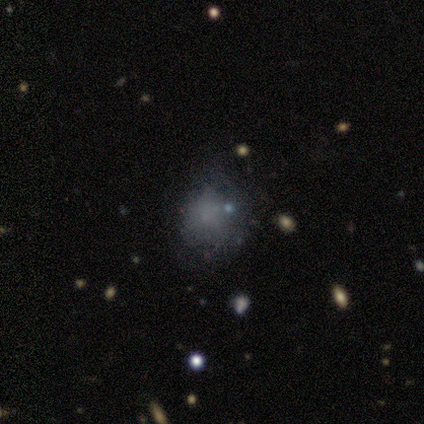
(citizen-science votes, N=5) A smooth galaxy with no disk features (60%) that is round (67%). Merging: minor disturbance (40%, tied with major disturbance).